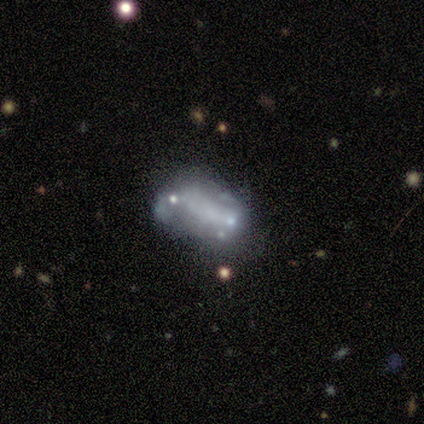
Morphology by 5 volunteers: smooth_or_featured: featured or disk (p=0.60) [alt: smooth p=0.40]
disk_edge_on: no (p=1.00)
bar: weak (p=0.67) [alt: no p=0.33]
has_spiral_arms: no (p=0.67) [alt: yes p=0.33]
bulge_size: small (p=0.67) [alt: none p=0.33]
merging: major disturbance (p=0.40) [tied with: merger p=0.40]